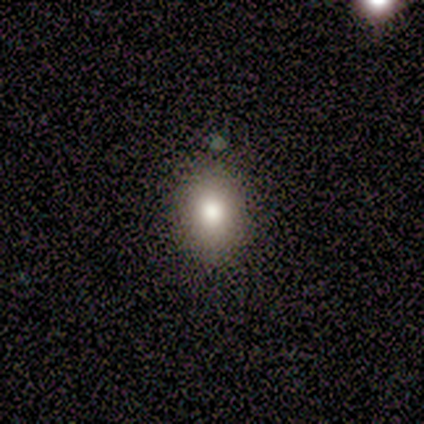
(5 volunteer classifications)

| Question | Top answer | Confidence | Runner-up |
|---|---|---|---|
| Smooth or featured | smooth | 100% | — |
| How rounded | in between | 80% | round (20%) |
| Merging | none | 100% | — |